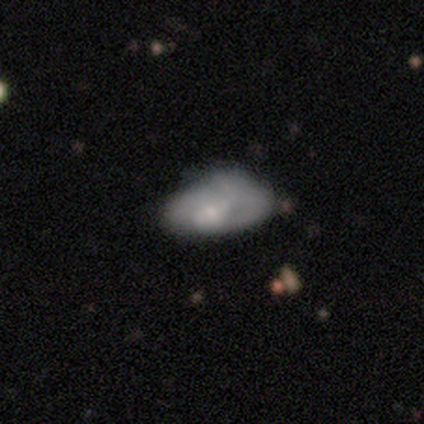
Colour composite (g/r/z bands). It shows a featured or disk galaxy (53%) with no bar (80%), no spiral arms (65%) and a small central bulge (50%). Merging: major disturbance (33%).